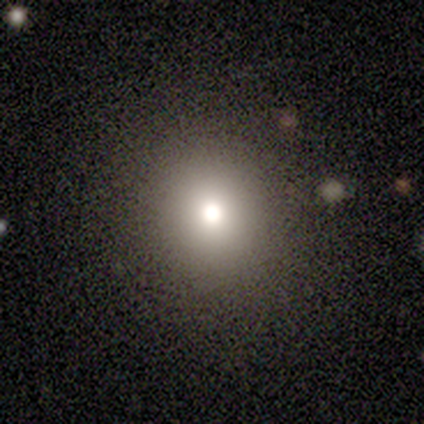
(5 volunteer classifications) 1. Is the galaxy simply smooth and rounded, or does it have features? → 80% smooth, 20% featured or disk, 0% star or artifact.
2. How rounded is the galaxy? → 100% round, 0% in between, 0% cigar-shaped.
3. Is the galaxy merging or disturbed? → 60% none, 40% minor disturbance, 0% major disturbance, 0% merger.